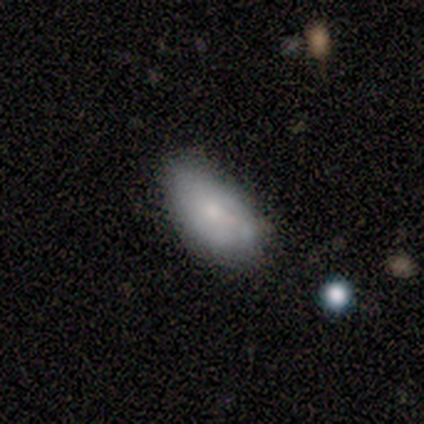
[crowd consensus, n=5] Smooth or featured? smooth (100%)
How rounded? in between (100%)
Merging? none (40%, tied with minor disturbance)